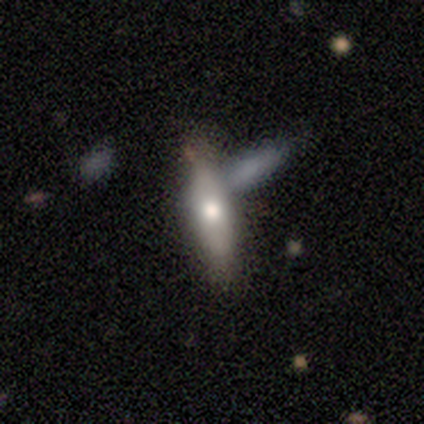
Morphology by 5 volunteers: smooth 60%, featured or disk 40%, star or artifact 0%. Down the decision tree: how rounded — cigar-shaped (100%); merging — none (60%).